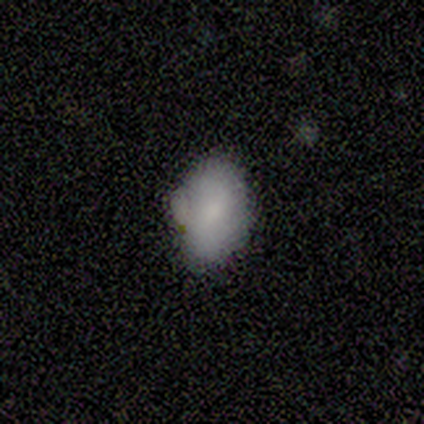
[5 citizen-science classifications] Overall: smooth (80%). How rounded: in between (100%). Merging: minor disturbance (75%).